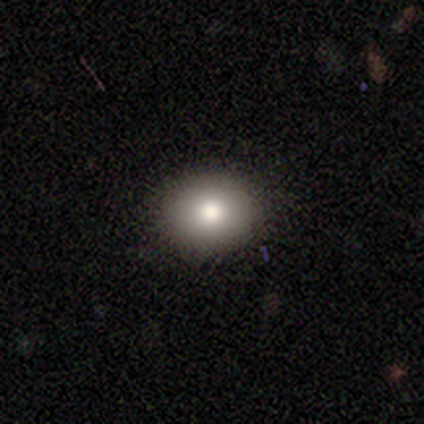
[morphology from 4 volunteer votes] This appears to be a smooth galaxy with no disk features (50%, tied with featured or disk) that is round (100%). Merging: none (100%).